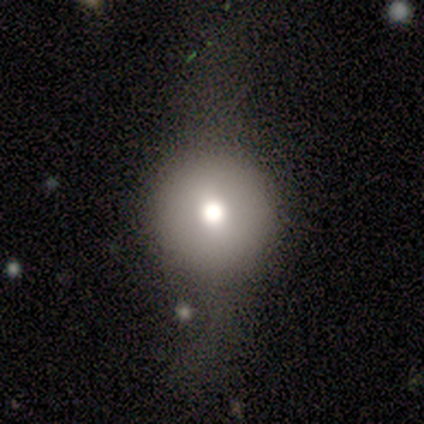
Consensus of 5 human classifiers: Smooth or featured?
  - smooth: 60% *
  - featured or disk: 20%
  - star or artifact: 20%
How rounded?
  - round: 100% *
  - in between: 0%
  - cigar-shaped: 0%
Merging?
  - none: 75% *
  - merger: 25%
  - minor disturbance: 0%
  - major disturbance: 0%